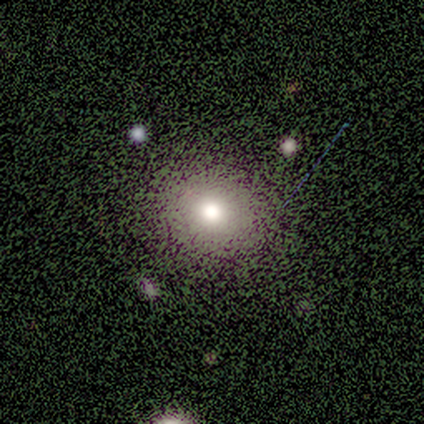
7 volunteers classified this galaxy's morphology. smooth_or_featured: smooth (p=0.57) [alt: star or artifact p=0.29]
how_rounded: round (p=1.00)
merging: none (p=1.00)